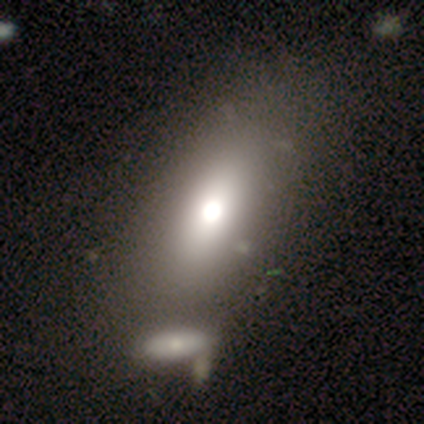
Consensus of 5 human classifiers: This appears to be a smooth galaxy with no disk features (60%) that is in between round and cigar-shaped (100%). Merging: none (75%).